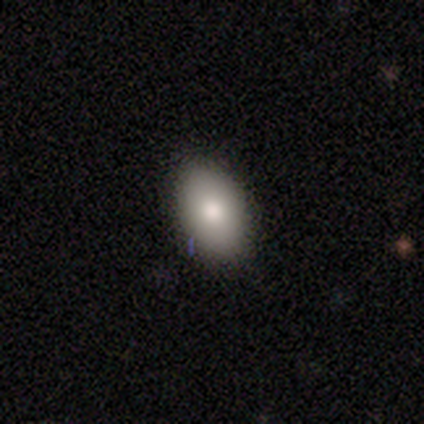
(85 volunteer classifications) Overall: smooth (84%). How rounded: in between (93%). Merging: none (90%).